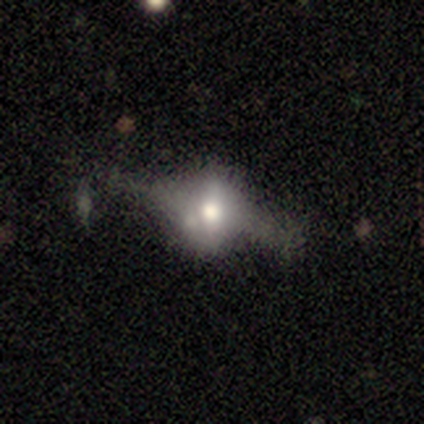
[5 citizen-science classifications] Smooth or featured? smooth (40%, tied with featured or disk)
How rounded? round (50%, tied with in between)
Merging? none (50%)